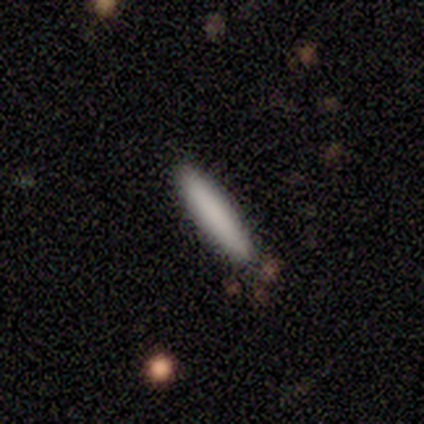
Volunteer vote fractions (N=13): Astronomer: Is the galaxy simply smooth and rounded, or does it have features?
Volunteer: smooth — 92%.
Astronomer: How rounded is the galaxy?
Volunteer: cigar-shaped — 83%.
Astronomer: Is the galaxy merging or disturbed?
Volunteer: none — 85%.